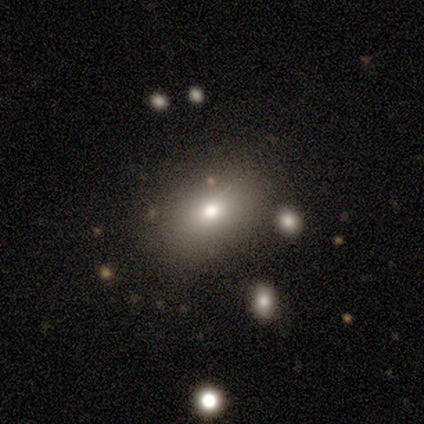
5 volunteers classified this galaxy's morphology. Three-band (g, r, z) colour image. It shows a smooth galaxy with no disk features (80%) that is in between round and cigar-shaped (75%). Merging: none (100%).